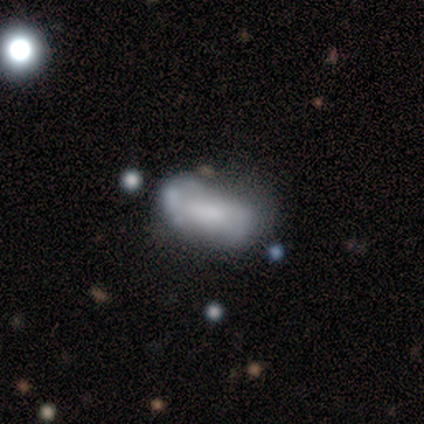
smooth-or-featured: featured or disk: 67% | smooth: 33% | star or artifact: 0%
  disk-edge-on: no: 100% | yes: 0%
    bar: no: 75% | weak: 25% | strong: 0%
    has-spiral-arms: no: 100% | yes: 0%
    bulge-size: large: 25% (tied) | moderate: 25% (tied) | small: 25% (tied) | none: 25% (tied) | dominant: 0%
  merging: merger: 67% | none: 33% | minor disturbance: 0% | major disturbance: 0%